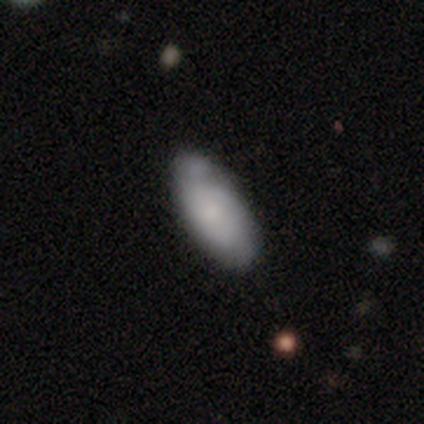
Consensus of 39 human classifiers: smooth-or-featured: smooth: 62% | featured or disk: 33% | star or artifact: 5%
  how-rounded: in between: 83% | cigar-shaped: 17% | round: 0%
  merging: none: 65% | minor disturbance: 27% | major disturbance: 5% | merger: 3%